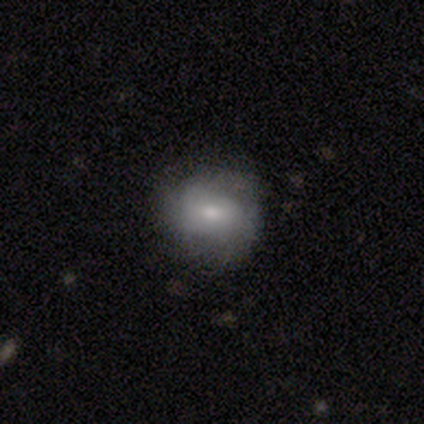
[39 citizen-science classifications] Overall: smooth (54%; featured or disk 38%). How rounded: round (76%). Merging: none (67%).